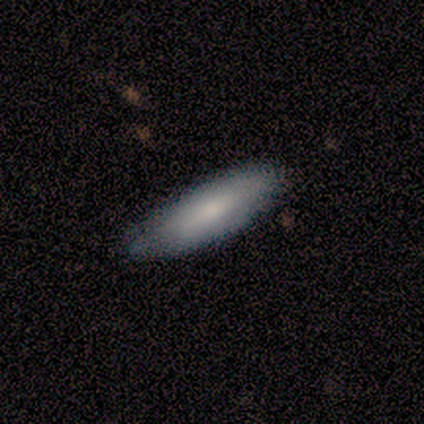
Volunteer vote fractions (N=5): A smooth galaxy with no disk features (80%) that is in between round and cigar-shaped (75%).

Vote fractions:
- Smooth or featured? smooth: 80% / featured or disk: 20% / star or artifact: 0%
- How rounded? in between: 75% / cigar-shaped: 25% / round: 0%
- Merging? none: 100% / minor disturbance: 0% / major disturbance: 0% / merger: 0%